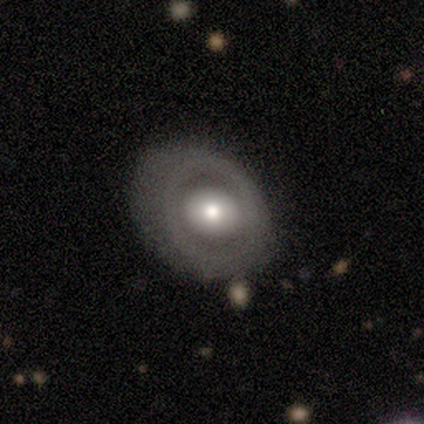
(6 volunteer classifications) smooth_or_featured: featured or disk (p=0.67) [alt: smooth p=0.33]
disk_edge_on: no (p=1.00)
bar: no (p=0.75) [alt: weak p=0.25]
has_spiral_arms: no (p=0.75) [alt: yes p=0.25]
bulge_size: moderate (p=1.00)
merging: none (p=0.50) [alt: minor disturbance p=0.33]